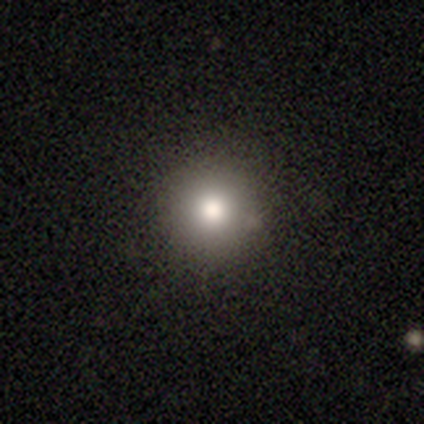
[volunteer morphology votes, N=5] type=smooth (60%); roundness=round (67%); merging=none (80%).